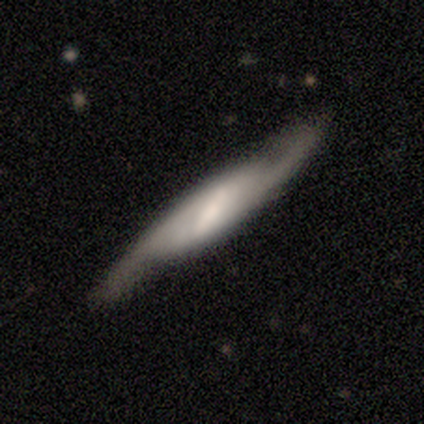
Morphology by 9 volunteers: Smooth or featured? featured or disk (78%)
Edge-on disk? no (71%)
Bar? strong (80%)
Spiral arms? yes (100%)
Spiral winding? loose (60%)
Spiral arm count? 2 (100%)
Bulge size? moderate (60%)
Merging? none (75%)